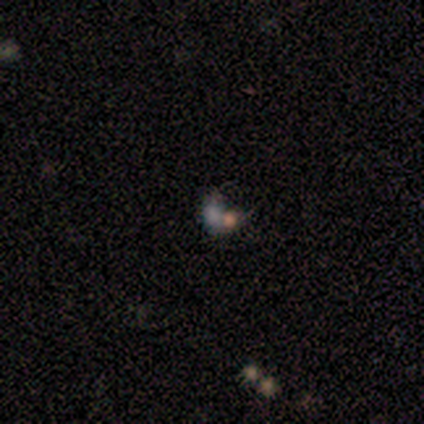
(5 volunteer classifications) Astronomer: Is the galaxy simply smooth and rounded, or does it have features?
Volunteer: star or artifact — 60%.